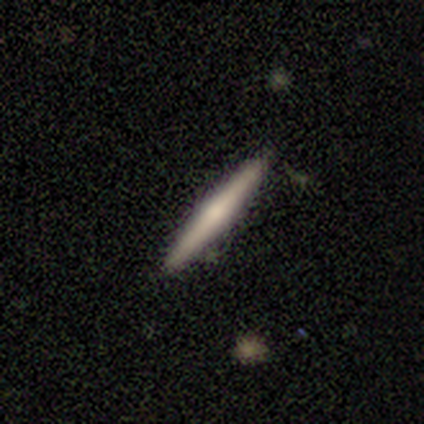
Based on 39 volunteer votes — Smooth or featured: featured or disk — 54% (smooth — 36%)
Edge-on disk: yes — 95% (no — 5%)
Edge-on bulge: rounded — 80% (none — 20%)
Merging: none — 89% (minor disturbance — 11%)